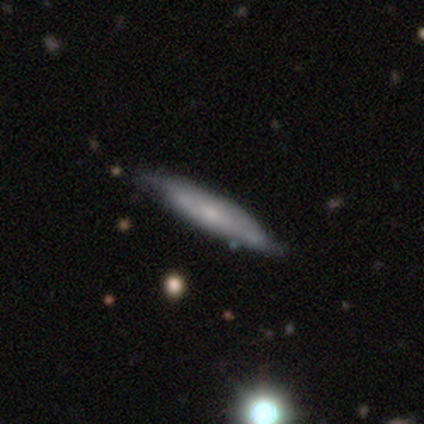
Smooth or featured? 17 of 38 (45%) said featured or disk. Edge-on disk? 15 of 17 (88%) said yes. Edge-on bulge? 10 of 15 (67%) said rounded. Merging? 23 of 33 (70%) said none.